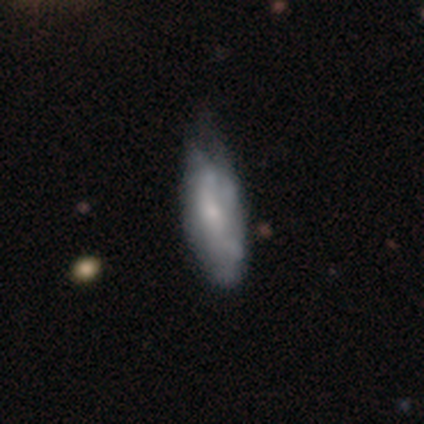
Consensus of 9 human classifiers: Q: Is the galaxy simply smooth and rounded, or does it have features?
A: smooth — 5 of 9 (56%).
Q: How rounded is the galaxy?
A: in between — 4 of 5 (80%).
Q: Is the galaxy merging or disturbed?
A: minor disturbance — 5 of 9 (56%).